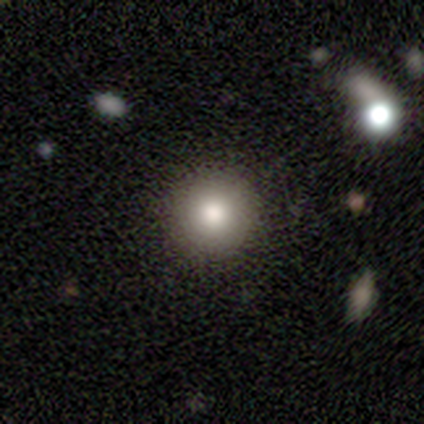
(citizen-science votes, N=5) Smooth or featured: smooth — 100%
How rounded: round — 100%
Merging: none — 100%